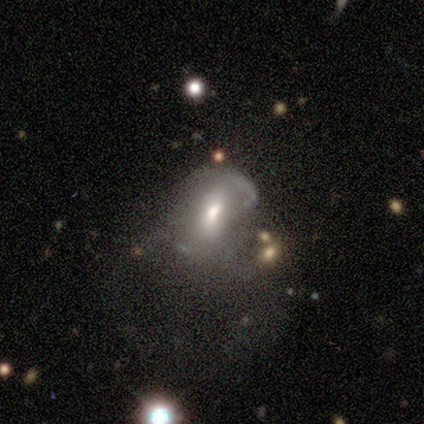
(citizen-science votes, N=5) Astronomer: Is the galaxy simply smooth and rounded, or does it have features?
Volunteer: featured or disk — 40%, tied with star or artifact at 40%.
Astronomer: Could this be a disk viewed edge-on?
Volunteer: no — 100%.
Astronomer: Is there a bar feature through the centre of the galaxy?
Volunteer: weak — 100%.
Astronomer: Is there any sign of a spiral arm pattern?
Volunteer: yes — 50%, tied with no at 50%.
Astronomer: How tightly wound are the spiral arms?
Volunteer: tight — 100%.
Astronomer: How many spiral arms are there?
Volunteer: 1 — 100%.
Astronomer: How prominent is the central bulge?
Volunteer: moderate — 100%.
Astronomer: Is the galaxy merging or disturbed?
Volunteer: major disturbance — 67%.